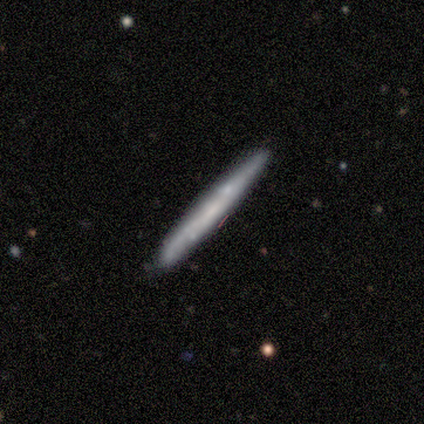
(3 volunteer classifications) Volunteers were most divided on "smooth or featured": smooth: 67%, featured or disk: 33%, star or artifact: 0%. More confident: how rounded — cigar-shaped (100%); merging — none (67%).